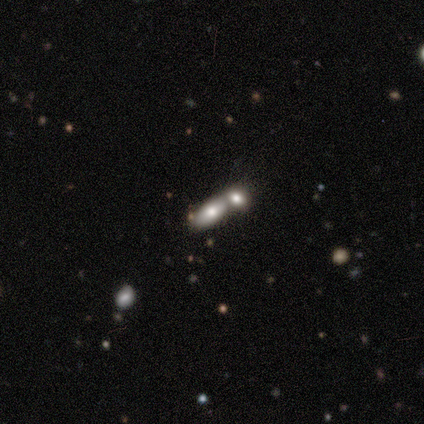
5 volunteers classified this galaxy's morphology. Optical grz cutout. It shows a smooth galaxy with no disk features (100%) that is in between round and cigar-shaped (100%). Merging: merger (100%).